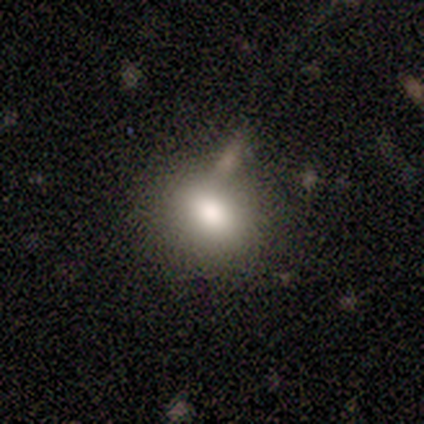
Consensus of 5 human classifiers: Smooth or featured?
  - featured or disk: 60% *
  - smooth: 40%
  - star or artifact: 0%
Edge-on disk?
  - no: 100% *
  - yes: 0%
Bar?
  - weak: 67% *
  - no: 33%
  - strong: 0%
Spiral arms?
  - no: 100% *
  - yes: 0%
Bulge size?
  - moderate: 100% *
  - dominant: 0%
  - large: 0%
  - small: 0%
  - none: 0%
Merging?
  - merger: 80% *
  - major disturbance: 20%
  - none: 0%
  - minor disturbance: 0%